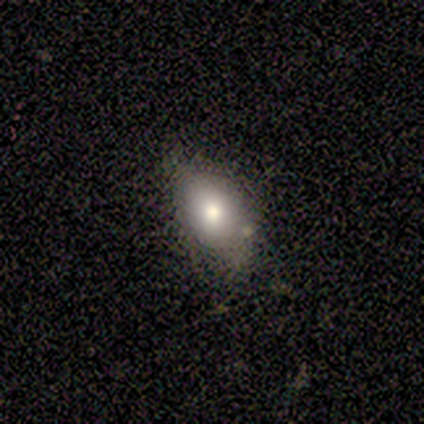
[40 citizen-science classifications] Volunteers were most divided on "merging": none: 57%, minor disturbance: 14%, major disturbance: 3%, merger: 0%. More confident: how rounded — in between (90%); smooth or featured — smooth (75%).